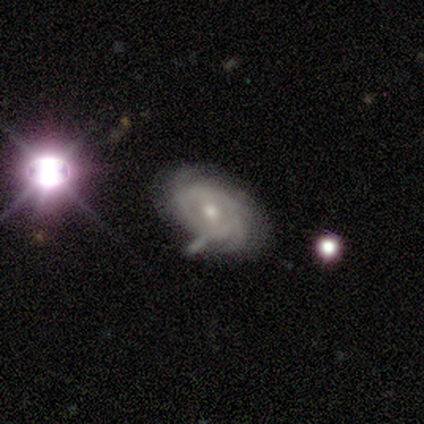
Smooth or featured? featured or disk (100%)
Edge-on disk? no (60%)
Bar? no (67%)
Spiral arms? yes (100%)
Spiral winding? tight (67%)
Spiral arm count? can't tell (67%)
Bulge size? small (67%)
Merging? minor disturbance (60%)